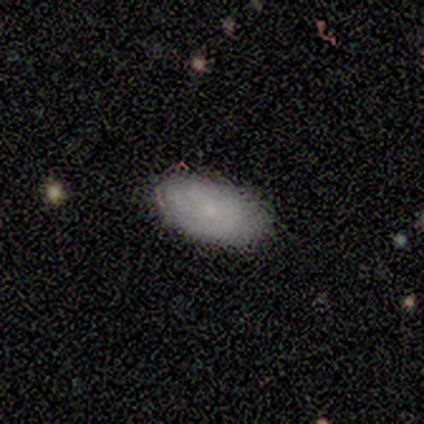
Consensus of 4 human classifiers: smooth-or-featured: smooth: 75% | featured or disk: 25% | star or artifact: 0%
  how-rounded: in between: 100% | round: 0% | cigar-shaped: 0%
  merging: none: 75% | minor disturbance: 25% | major disturbance: 0% | merger: 0%